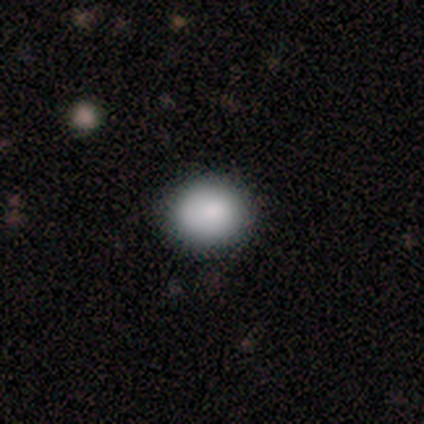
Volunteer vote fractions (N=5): Q: Smooth or featured?
A: smooth (80%); runner-up: star or artifact (20%)
Q: How rounded?
A: round (100%)
Q: Merging?
A: none (100%)